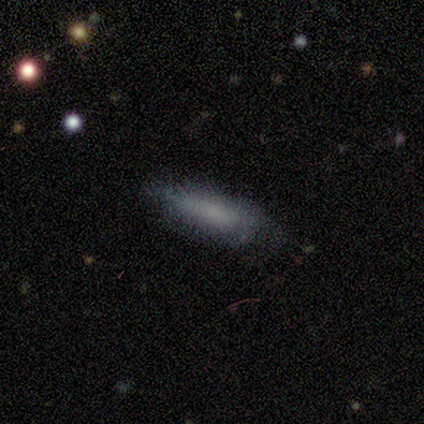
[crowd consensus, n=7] smooth-or-featured: smooth: 71% | featured or disk: 29% | star or artifact: 0%
  how-rounded: cigar-shaped: 80% | in between: 20% | round: 0%
  merging: none: 71% | minor disturbance: 29% | major disturbance: 0% | merger: 0%